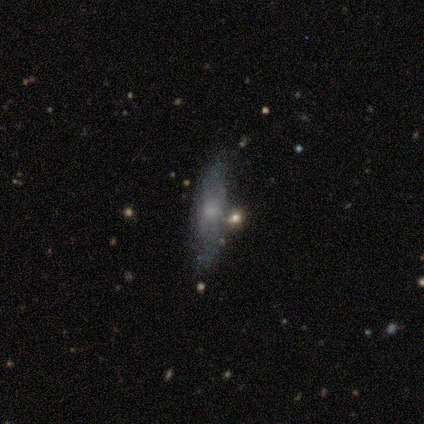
A featured or disk galaxy (60%) with no bar (100%), no spiral arms (100%) and a moderate central bulge (50%, tied with none). Merging: none (80%).